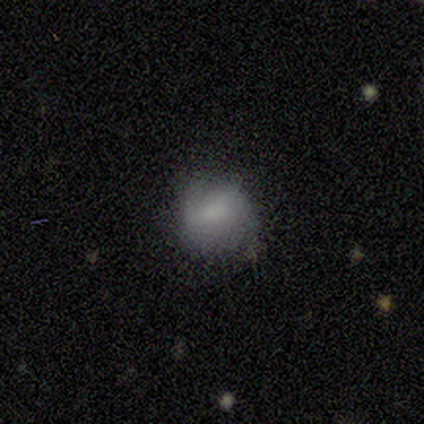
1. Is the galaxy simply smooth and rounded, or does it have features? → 71% smooth, 14% featured or disk, 14% star or artifact.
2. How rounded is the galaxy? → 100% round, 0% in between, 0% cigar-shaped.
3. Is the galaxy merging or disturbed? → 83% none, 17% minor disturbance, 0% major disturbance, 0% merger.